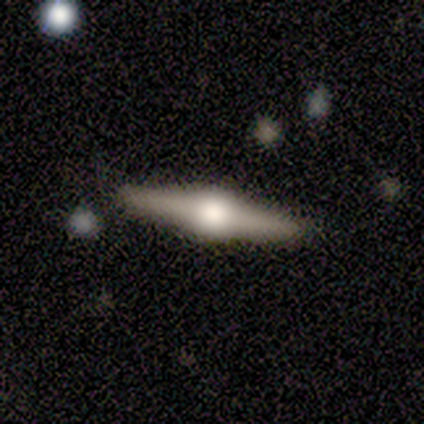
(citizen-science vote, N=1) Smooth or featured? featured or disk (100%)
Edge-on disk? yes (100%)
Edge-on bulge? rounded (100%)
Merging? none (100%)